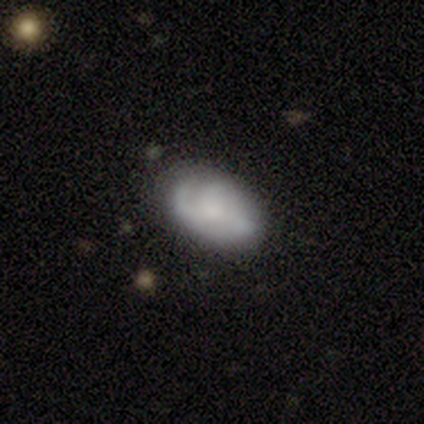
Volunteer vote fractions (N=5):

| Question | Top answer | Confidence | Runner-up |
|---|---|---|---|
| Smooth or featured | featured or disk | 60% | smooth (40%) |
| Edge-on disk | no | 100% | — |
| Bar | no | 67% | weak (33%) |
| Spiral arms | yes | 67% | no (33%) |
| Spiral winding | tight | 50% | tied: medium (50%) |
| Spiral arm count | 2 | 50% | tied: 3 (50%) |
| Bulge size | moderate | 33% | tied: small (33%), none (33%) |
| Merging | none | 60% | minor disturbance (40%) |